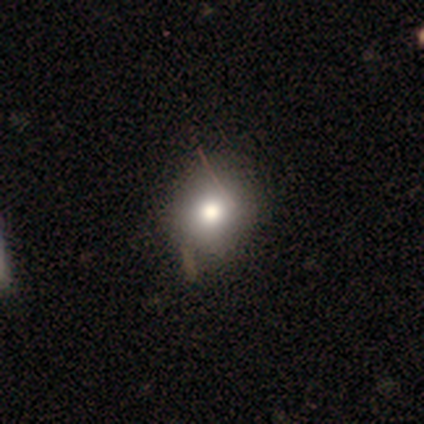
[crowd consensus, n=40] smooth-or-featured: smooth: 75% | featured or disk: 20% | star or artifact: 5%
  how-rounded: round: 83% | in between: 17% | cigar-shaped: 0%
  merging: none: 55% | minor disturbance: 16% | major disturbance: 3% | merger: 3%